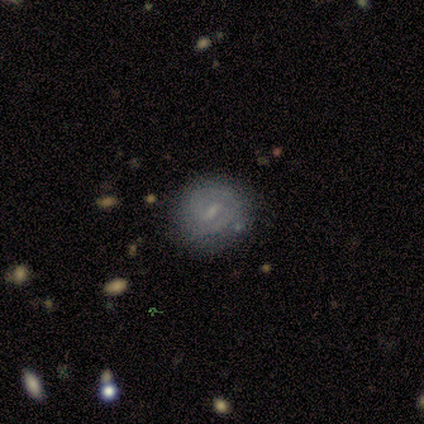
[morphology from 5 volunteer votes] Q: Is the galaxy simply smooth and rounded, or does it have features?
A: featured or disk — 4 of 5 (80%).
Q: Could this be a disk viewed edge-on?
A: no — 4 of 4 (100%).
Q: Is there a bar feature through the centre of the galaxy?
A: strong — 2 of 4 (50%, tied with weak).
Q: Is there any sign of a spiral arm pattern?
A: yes — 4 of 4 (100%).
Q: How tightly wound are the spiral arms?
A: tight — 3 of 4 (75%).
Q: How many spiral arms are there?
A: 2 — 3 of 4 (75%).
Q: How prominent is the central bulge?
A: small — 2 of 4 (50%).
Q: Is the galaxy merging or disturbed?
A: none — 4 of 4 (100%).